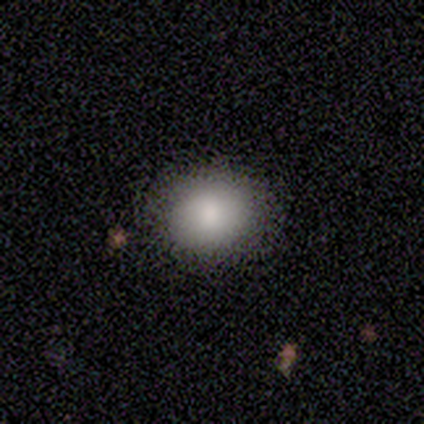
A smooth galaxy with no disk features (60%) that is in between round and cigar-shaped (67%).

Vote fractions:
- Smooth or featured? smooth: 60% / featured or disk: 20% / star or artifact: 20%
- How rounded? in between: 67% / round: 33% / cigar-shaped: 0%
- Merging? none: 50% (tied) / minor disturbance: 50% (tied) / major disturbance: 0% / merger: 0%